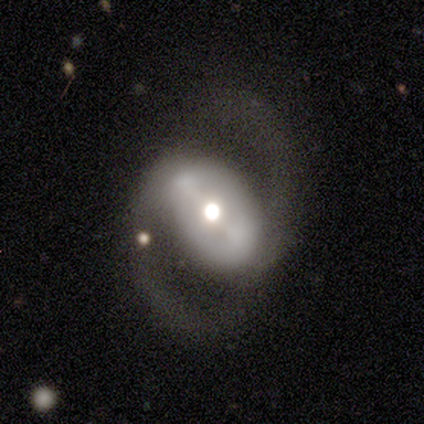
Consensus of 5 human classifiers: Q: Smooth or featured?
A: featured or disk (100%)
Q: Edge-on disk?
A: no (100%)
Q: Bar?
A: strong (60%); runner-up: weak (20%)
Q: Spiral arms?
A: yes (100%)
Q: Spiral winding?
A: medium (80%); runner-up: loose (20%)
Q: Spiral arm count?
A: 2 (100%)
Q: Bulge size?
A: moderate (60%); runner-up: small (40%)
Q: Merging?
A: none (80%); runner-up: major disturbance (20%)